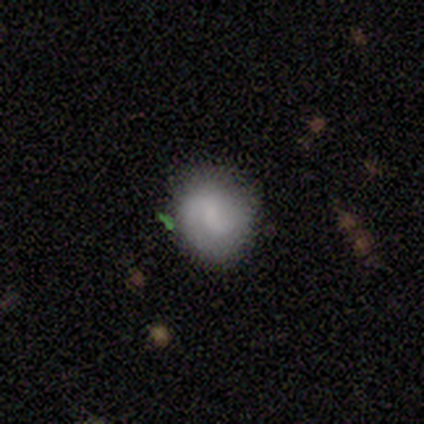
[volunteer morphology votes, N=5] smooth 60%, featured or disk 40%, star or artifact 0%. Down the decision tree: how rounded — round (100%); merging — none (80%).